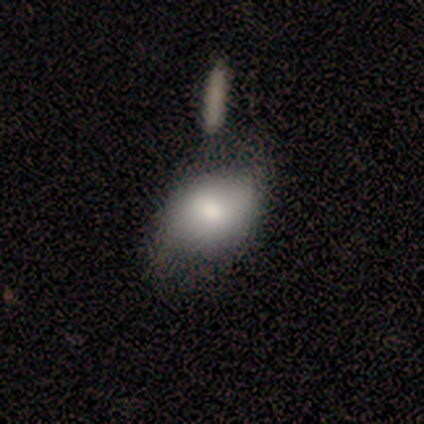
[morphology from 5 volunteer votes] smooth 80%, featured or disk 20%, star or artifact 0%. Down the decision tree: how rounded — in between (75%); merging — none (60%).